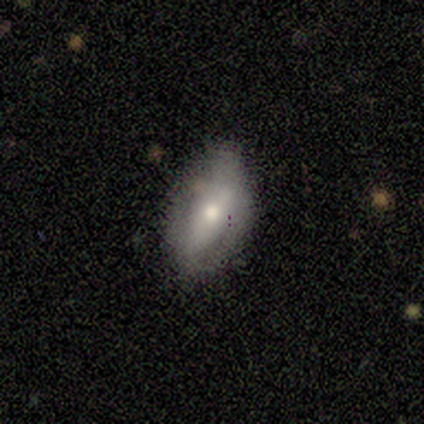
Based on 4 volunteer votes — Smooth or featured? smooth (75%)
How rounded? in between (100%)
Merging? none (100%)